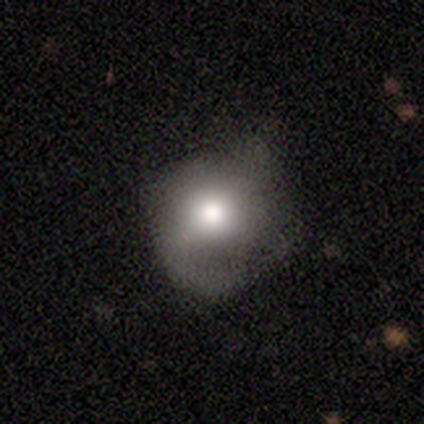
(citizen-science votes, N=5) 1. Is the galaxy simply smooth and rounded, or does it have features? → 60% featured or disk, 40% smooth, 0% star or artifact.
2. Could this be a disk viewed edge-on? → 100% no, 0% yes.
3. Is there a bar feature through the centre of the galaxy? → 67% no, 33% weak, 0% strong.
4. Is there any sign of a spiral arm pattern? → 100% yes, 0% no.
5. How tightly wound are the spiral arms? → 67% medium, 33% loose, 0% tight.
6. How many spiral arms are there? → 67% 1, 33% 4, 0% 2, 0% 3, 0% more than 4, 0% can't tell.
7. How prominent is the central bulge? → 67% moderate, 33% large, 0% dominant, 0% small, 0% none.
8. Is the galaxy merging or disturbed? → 60% minor disturbance, 40% major disturbance, 0% none, 0% merger.